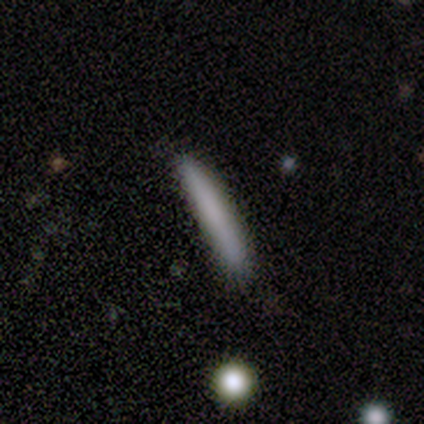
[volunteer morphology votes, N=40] smooth 70%, featured or disk 22%, star or artifact 8%. Down the decision tree: how rounded — cigar-shaped (100%); merging — none (86%).